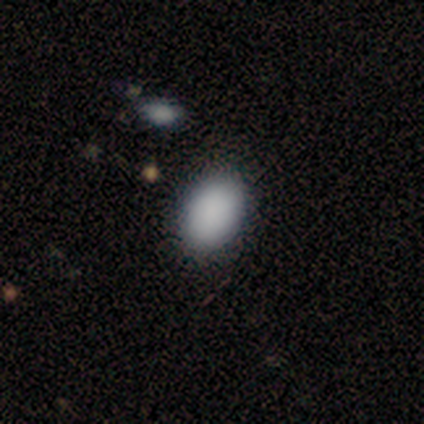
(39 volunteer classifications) Q: Smooth or featured?
A: smooth (87%); runner-up: featured or disk (10%)
Q: How rounded?
A: in between (88%); runner-up: round (12%)
Q: Merging?
A: none (71%); runner-up: minor disturbance (3%)